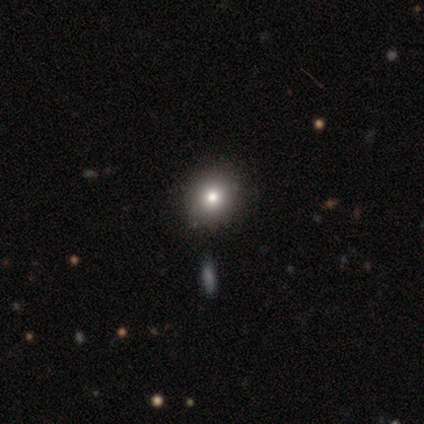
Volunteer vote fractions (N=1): This appears to be a smooth galaxy with no disk features (100%) that is in between round and cigar-shaped (100%). Merging: none (100%).